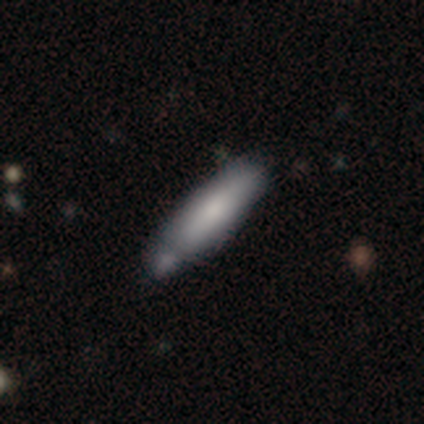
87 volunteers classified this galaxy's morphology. type=smooth (74%); roundness=cigar-shaped (73%); merging=none (58%).